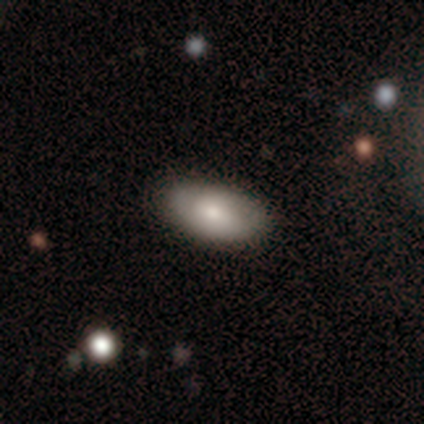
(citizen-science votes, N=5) Smooth or featured?
  - smooth: 40% * (tied)
  - featured or disk: 40% * (tied)
  - star or artifact: 20%
How rounded?
  - in between: 100% *
  - round: 0%
  - cigar-shaped: 0%
Merging?
  - minor disturbance: 75% *
  - none: 25%
  - major disturbance: 0%
  - merger: 0%